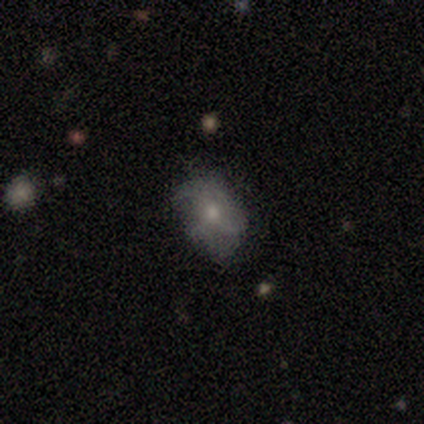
smooth 50%, star or artifact 30%, featured or disk 20%. Down the decision tree: how rounded — in between (100%); merging — none (57%).